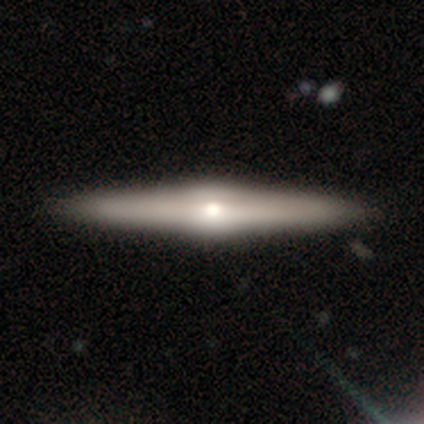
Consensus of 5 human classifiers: smooth_or_featured: featured or disk (p=0.80) [alt: smooth p=0.20]
disk_edge_on: yes (p=1.00)
edge_on_bulge: rounded (p=1.00)
merging: none (p=1.00)